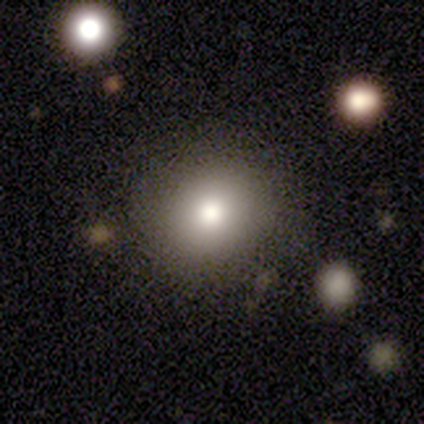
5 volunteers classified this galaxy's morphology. type=smooth (60%); roundness=round (67%); merging=none (67%).